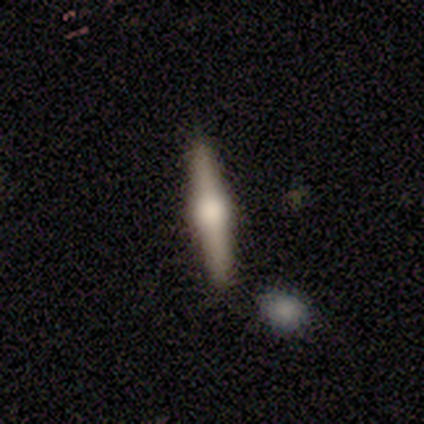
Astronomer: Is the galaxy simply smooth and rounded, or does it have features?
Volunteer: featured or disk — 83%.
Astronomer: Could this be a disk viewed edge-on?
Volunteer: yes — 100%.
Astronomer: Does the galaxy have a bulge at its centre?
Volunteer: rounded — 80%.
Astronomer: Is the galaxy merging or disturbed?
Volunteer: none — 100%.